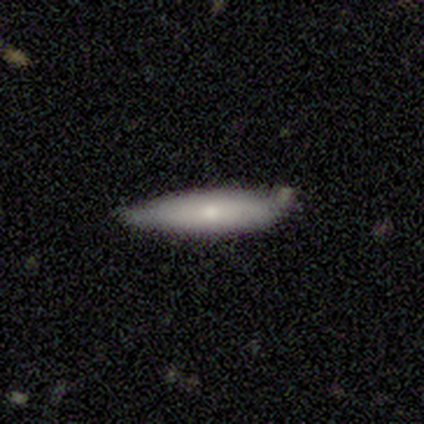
Smooth or featured? 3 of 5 (60%) said smooth. How rounded? 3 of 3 (100%) said cigar-shaped. Merging? 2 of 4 (50%, tied with minor disturbance) said none.